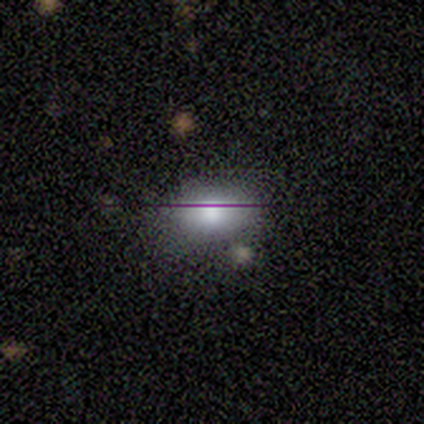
smooth 80%, featured or disk 10%, star or artifact 10%. Down the decision tree: how rounded — in between (100%); merging — none (89%).